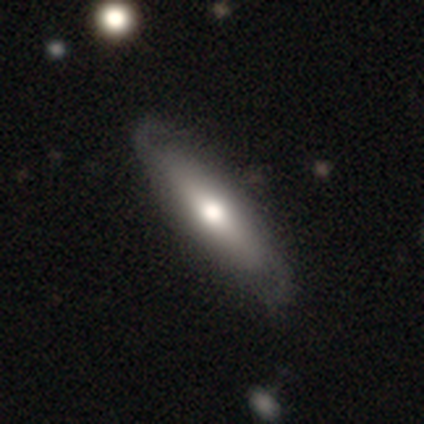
A featured or disk galaxy (60%) with a strong bar (50%, tied with no), 2 (100%) medium (100%) spiral arms (50%, tied with no) and a moderate central bulge (100%). Merging: none (75%).